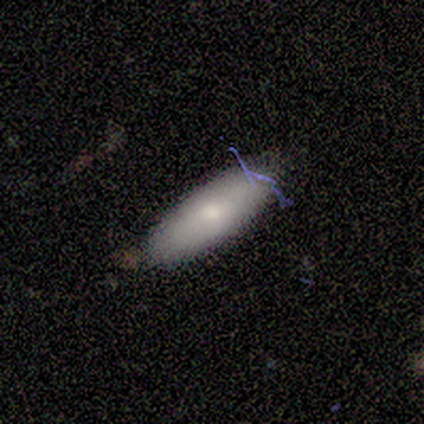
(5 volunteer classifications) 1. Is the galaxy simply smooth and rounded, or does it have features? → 60% smooth, 40% featured or disk, 0% star or artifact.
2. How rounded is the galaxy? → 67% cigar-shaped, 33% in between, 0% round.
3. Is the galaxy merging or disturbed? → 80% none, 20% minor disturbance, 0% major disturbance, 0% merger.